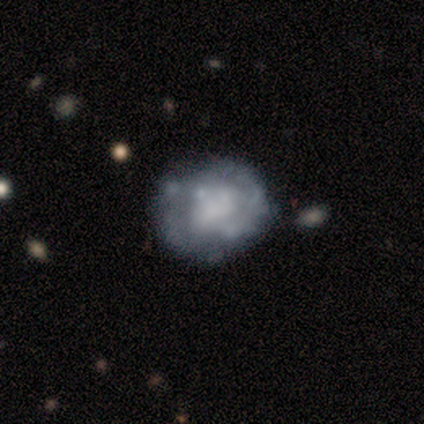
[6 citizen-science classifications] smooth-or-featured: smooth: 50% | featured or disk: 33% | star or artifact: 17%
  how-rounded: round: 100% | in between: 0% | cigar-shaped: 0%
  merging: none: 80% | minor disturbance: 20% | major disturbance: 0% | merger: 0%